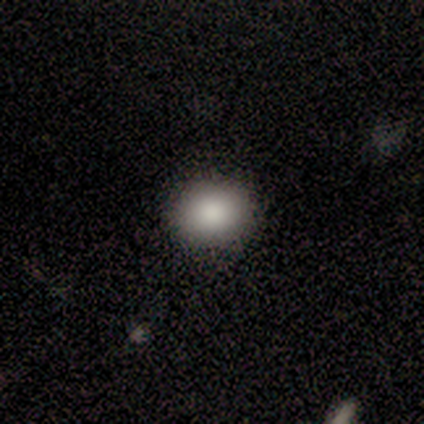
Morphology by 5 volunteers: Volunteers were most divided on "smooth or featured": smooth: 80%, star or artifact: 20%, featured or disk: 0%. More confident: how rounded — round (100%); merging — none (100%).